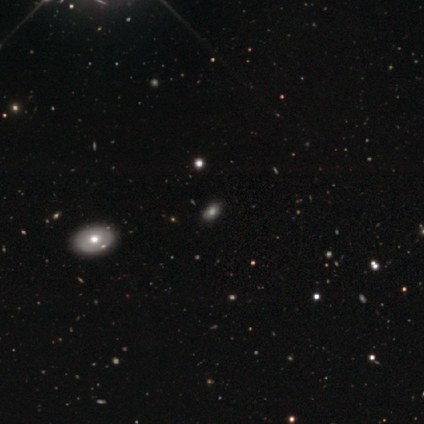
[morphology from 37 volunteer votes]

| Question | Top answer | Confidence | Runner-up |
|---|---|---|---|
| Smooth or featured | smooth | 62% | star or artifact (27%) |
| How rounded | in between | 91% | round (9%) |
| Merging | none | 70% | minor disturbance (7%) |